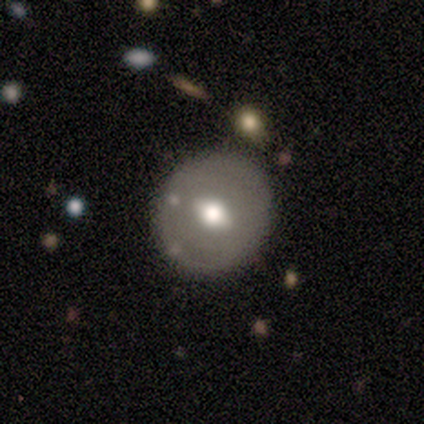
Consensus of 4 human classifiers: Volunteers were most divided on "smooth or featured" (2-way tie): smooth: 50%, featured or disk: 50%, star or artifact: 0%. More confident: how rounded — round (100%); merging — none (75%).